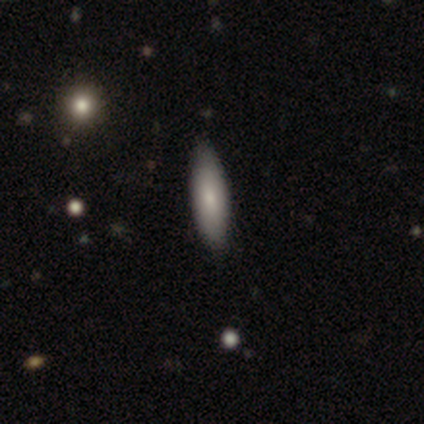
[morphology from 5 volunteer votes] This is clearly a smooth galaxy (80%). How rounded: likely cigar-shaped (75%). Merging: likely none (60%).